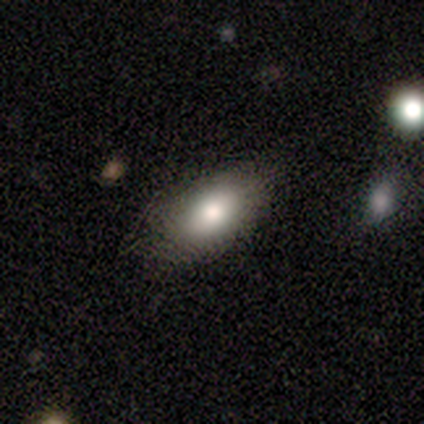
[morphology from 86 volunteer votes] Volunteers were most divided on "smooth or featured": smooth: 78%, featured or disk: 16%, star or artifact: 6%. More confident: how rounded — in between (90%); merging — none (80%).